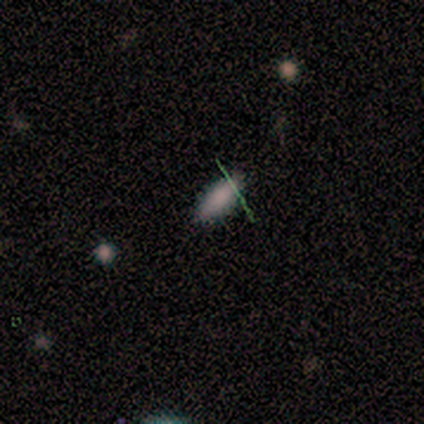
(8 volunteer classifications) Smooth or featured?
  - smooth: 88% *
  - featured or disk: 12%
  - star or artifact: 0%
How rounded?
  - in between: 86% *
  - cigar-shaped: 14%
  - round: 0%
Merging?
  - none: 100% *
  - minor disturbance: 0%
  - major disturbance: 0%
  - merger: 0%